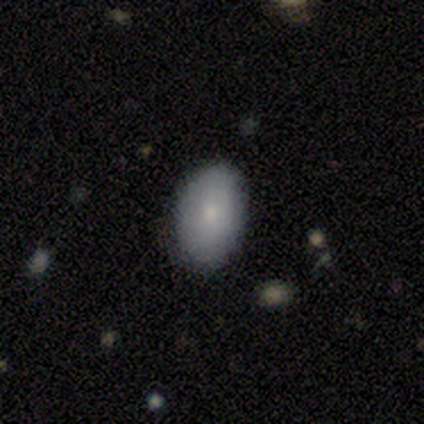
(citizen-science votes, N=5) Volunteers were most divided on "how rounded": in between: 80%, round: 20%, cigar-shaped: 0%. More confident: smooth or featured — smooth (100%); merging — none (80%).